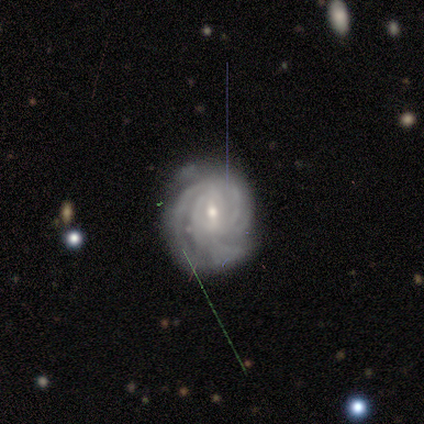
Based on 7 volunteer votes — smooth-or-featured: featured or disk: 71% | smooth: 14% | star or artifact: 14%
  disk-edge-on: no: 100% | yes: 0%
    bar: weak: 60% | no: 40% | strong: 0%
    has-spiral-arms: yes: 100% | no: 0%
      spiral-winding: tight: 80% | medium: 20% | loose: 0%
      spiral-arm-count: 3: 40% (tied) | can't tell: 40% (tied) | 2: 20% | 1: 0% | 4: 0% | more than 4: 0%
    bulge-size: small: 100% | dominant: 0% | large: 0% | moderate: 0% | none: 0%
  merging: none: 83% | minor disturbance: 17% | major disturbance: 0% | merger: 0%